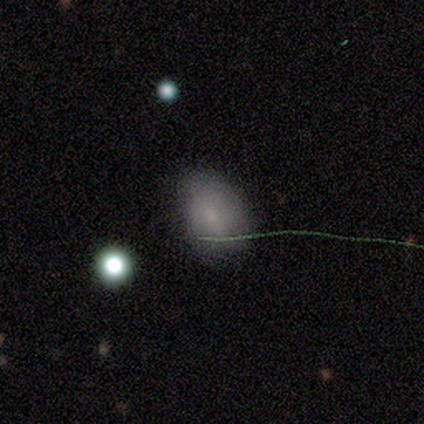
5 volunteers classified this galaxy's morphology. Smooth or featured? smooth (100%)
How rounded? in between (100%)
Merging? none (60%)